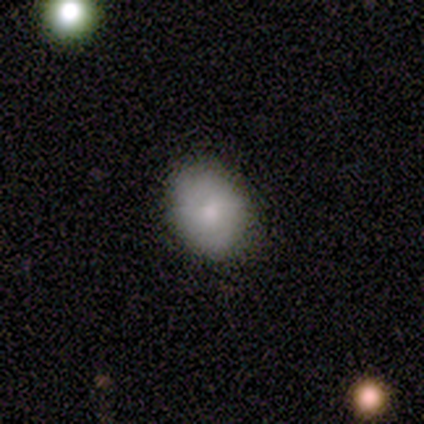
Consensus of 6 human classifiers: smooth 100%, featured or disk 0%, star or artifact 0%. Down the decision tree: how rounded — in between (67%); merging — none (100%).